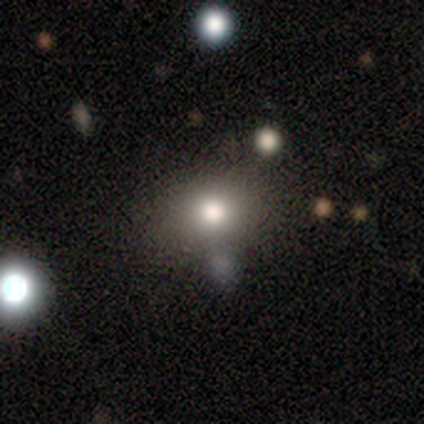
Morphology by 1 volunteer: Smooth or featured? smooth (100%)
How rounded? round (100%)
Merging? merger (100%)